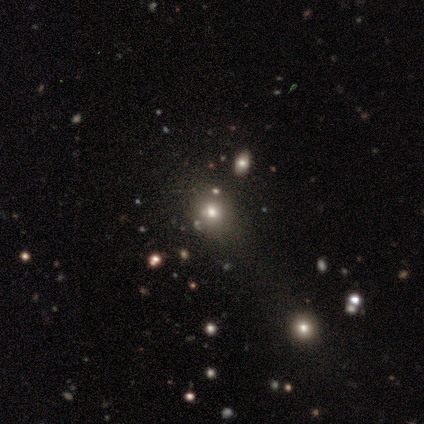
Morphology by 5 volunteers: Smooth or featured? 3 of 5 (60%) said featured or disk. Edge-on disk? 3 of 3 (100%) said no. Bar? 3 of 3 (100%) said no. Spiral arms? 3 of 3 (100%) said no. Bulge size? 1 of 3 (33%, tied with small and none) said moderate. Merging? 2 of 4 (50%) said none.